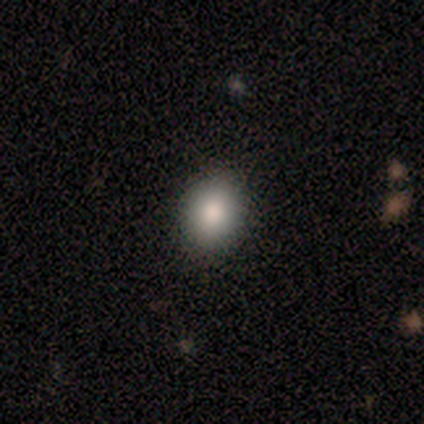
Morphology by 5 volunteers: Smooth or featured? smooth (100%)
How rounded? in between (80%)
Merging? none (100%)